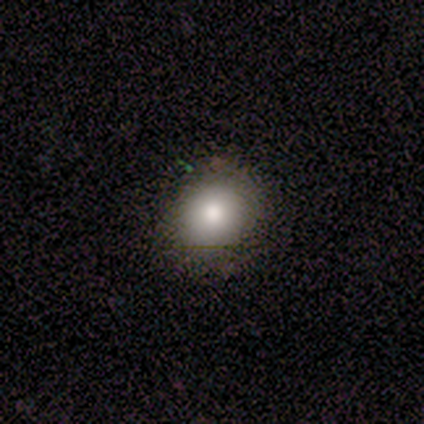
smooth 100%, featured or disk 0%, star or artifact 0%. Down the decision tree: how rounded — round (50%, tied with in between); merging — none (75%).